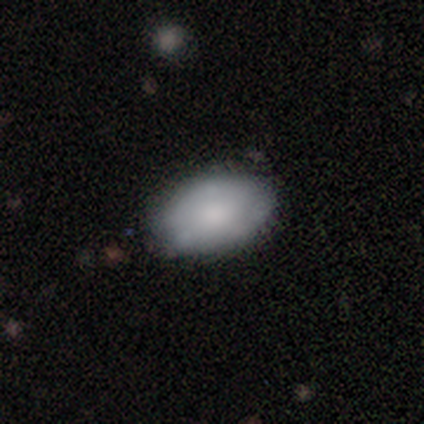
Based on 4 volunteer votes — smooth_or_featured: smooth (p=0.50) [alt: featured or disk p=0.25]
how_rounded: in between (p=1.00)
merging: none (p=1.00)